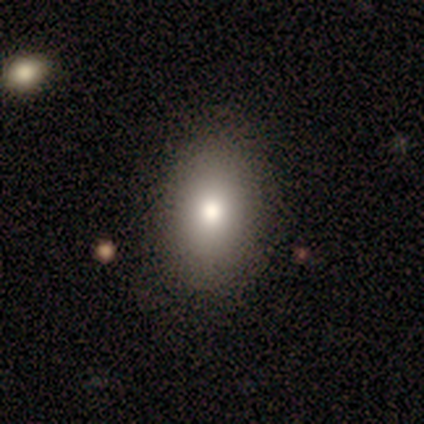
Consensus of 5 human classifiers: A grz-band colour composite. It shows a smooth galaxy with no disk features (60%) that is in between round and cigar-shaped (100%). Merging: none (100%).